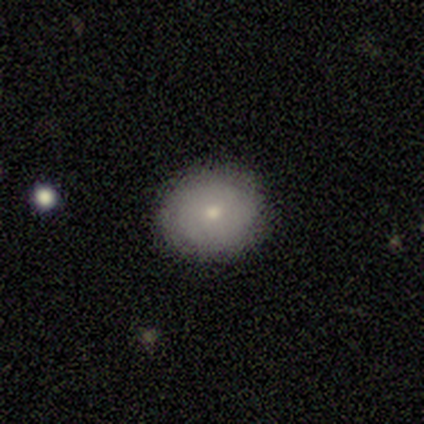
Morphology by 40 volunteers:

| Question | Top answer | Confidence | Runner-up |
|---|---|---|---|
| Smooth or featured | smooth | 70% | featured or disk (22%) |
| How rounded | round | 71% | in between (29%) |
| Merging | none | 92% | minor disturbance (5%) |